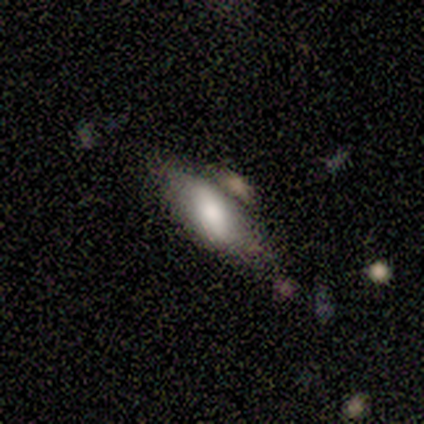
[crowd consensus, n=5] Morphology: type=smooth (80%); roundness=in between (75%); merging=none (40%, tied with minor disturbance).